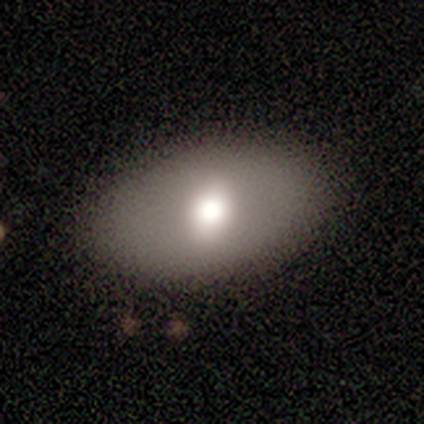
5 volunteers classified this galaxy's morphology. smooth 60%, featured or disk 40%, star or artifact 0%. Down the decision tree: how rounded — in between (100%); merging — none (100%).